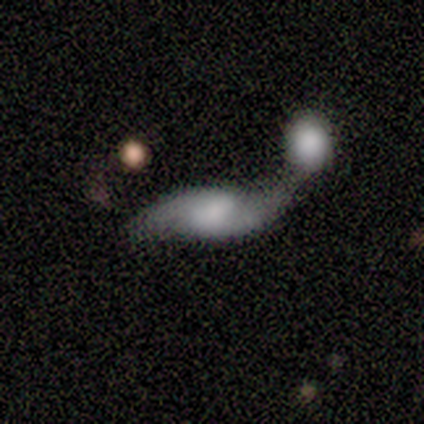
Q: Smooth or featured?
A: featured or disk (76%); runner-up: smooth (20%)
Q: Edge-on disk?
A: no (97%); runner-up: yes (3%)
Q: Bar?
A: weak (44%); tied with: no (44%)
Q: Spiral arms?
A: yes (94%); runner-up: no (6%)
Q: Spiral winding?
A: loose (82%); runner-up: medium (12%)
Q: Spiral arm count?
A: 2 (97%); runner-up: more than 4 (3%)
Q: Bulge size?
A: moderate (33%); runner-up: large (25%)
Q: Merging?
A: merger (66%); runner-up: none (21%)